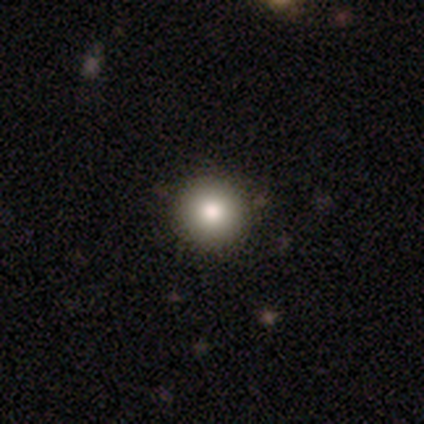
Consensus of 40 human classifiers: smooth 85%, star or artifact 10%, featured or disk 5%. Down the decision tree: how rounded — round (100%); merging — none (61%).